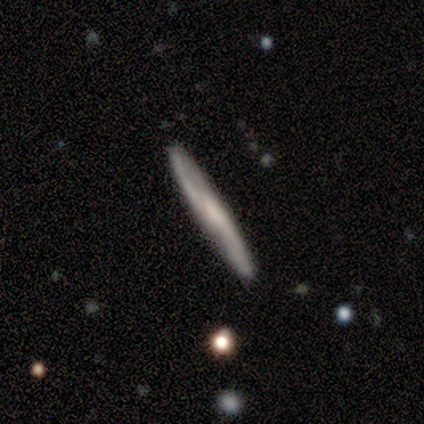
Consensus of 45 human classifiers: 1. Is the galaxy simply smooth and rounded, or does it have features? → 62% featured or disk, 33% smooth, 4% star or artifact.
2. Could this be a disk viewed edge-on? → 82% yes, 18% no.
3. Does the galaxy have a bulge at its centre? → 70% none, 17% rounded, 13% boxy.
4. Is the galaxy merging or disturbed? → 88% none, 7% minor disturbance, 2% major disturbance, 2% merger.